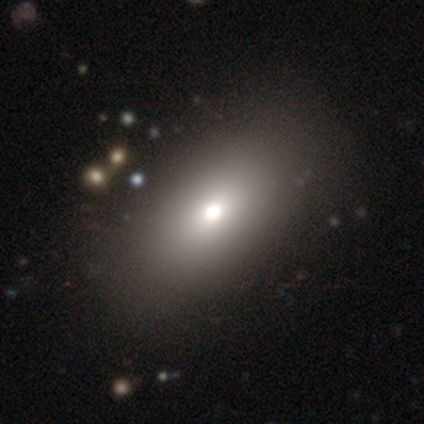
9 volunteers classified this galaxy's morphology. Overall: smooth (67%). How rounded: in between (100%). Merging: none (88%).